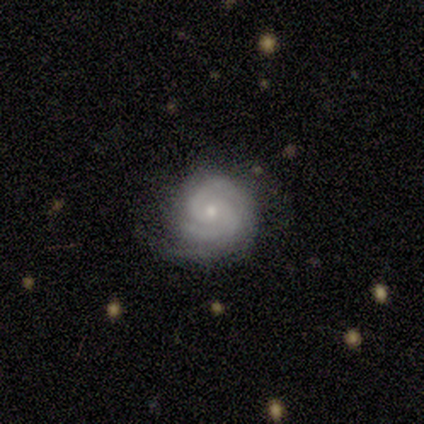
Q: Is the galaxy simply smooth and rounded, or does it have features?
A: featured or disk — 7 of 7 (100%).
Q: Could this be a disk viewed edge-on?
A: no — 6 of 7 (86%).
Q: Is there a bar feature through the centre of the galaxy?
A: weak — 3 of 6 (50%).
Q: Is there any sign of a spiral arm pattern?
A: yes — 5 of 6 (83%).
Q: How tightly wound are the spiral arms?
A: tight — 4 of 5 (80%).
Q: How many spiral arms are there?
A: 2 — 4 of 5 (80%).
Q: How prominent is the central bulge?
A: small — 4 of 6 (67%).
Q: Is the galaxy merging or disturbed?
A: none — 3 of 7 (43%).